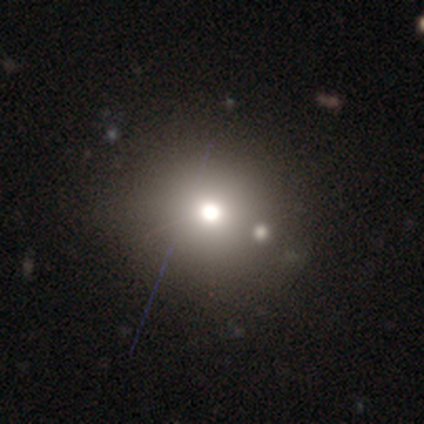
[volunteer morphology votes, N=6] Smooth or featured? 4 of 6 (67%) said smooth. How rounded? 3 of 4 (75%) said round. Merging? 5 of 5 (100%) said none.